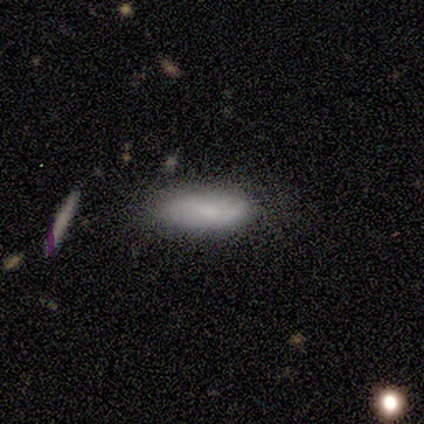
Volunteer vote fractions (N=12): smooth-or-featured: smooth: 75% | featured or disk: 17% | star or artifact: 8%
  how-rounded: in between: 67% | cigar-shaped: 33% | round: 0%
  merging: none: 64% | minor disturbance: 27% | merger: 9% | major disturbance: 0%